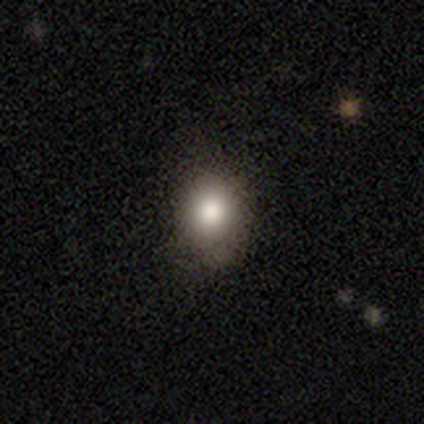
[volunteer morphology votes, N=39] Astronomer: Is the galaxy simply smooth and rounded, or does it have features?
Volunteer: smooth — 79%.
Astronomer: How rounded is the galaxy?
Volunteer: round — 71%.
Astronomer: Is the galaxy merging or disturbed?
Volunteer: none — 72%.